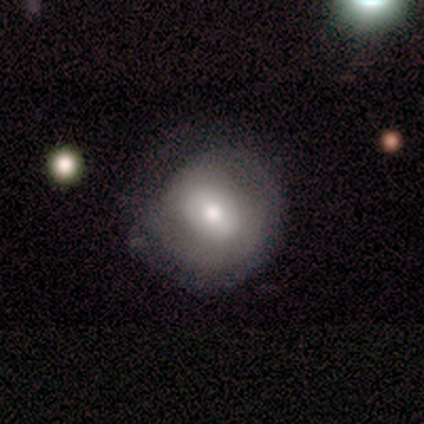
Smooth or featured? smooth (67%)
How rounded? round (100%)
Merging? none (80%)